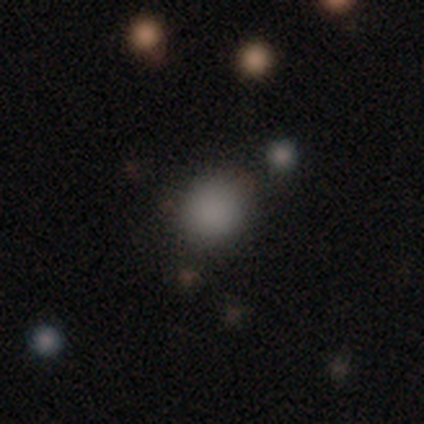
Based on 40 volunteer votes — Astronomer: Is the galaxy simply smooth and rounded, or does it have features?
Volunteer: smooth — 82%.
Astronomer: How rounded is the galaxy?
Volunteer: round — 73%.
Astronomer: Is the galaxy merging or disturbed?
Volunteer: none — 92%.